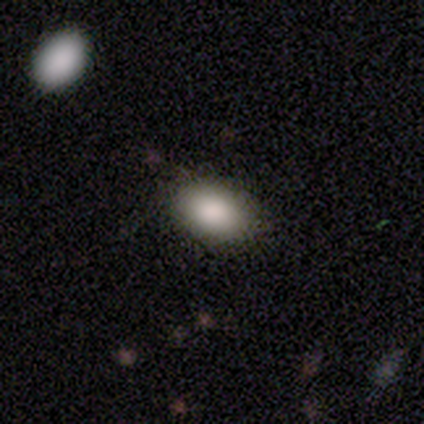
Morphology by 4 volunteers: Q: Smooth or featured?
A: smooth (75%); runner-up: featured or disk (25%)
Q: How rounded?
A: in between (100%)
Q: Merging?
A: none (100%)